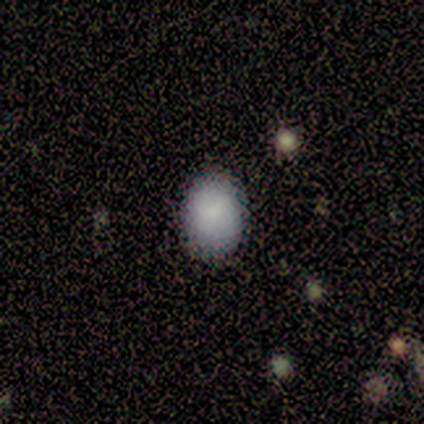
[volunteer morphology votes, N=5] smooth 100%, featured or disk 0%, star or artifact 0%. Down the decision tree: how rounded — round (60%); merging — none (100%).